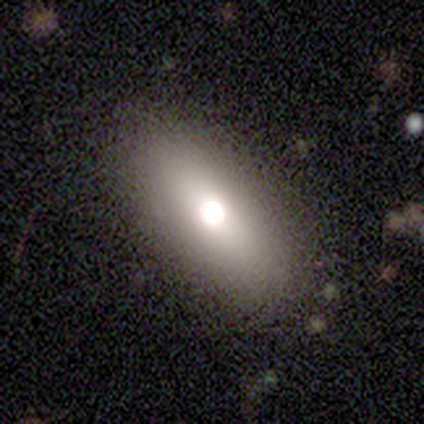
Smooth or featured: smooth — 67% (featured or disk — 17%)
How rounded: in between — 100%
Merging: none — 90% (minor disturbance — 10%)